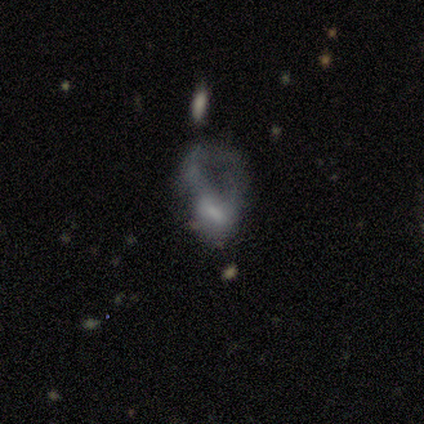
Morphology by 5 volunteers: A smooth galaxy with no disk features (60%) that is in between round and cigar-shaped (100%).

Vote fractions:
- Smooth or featured? smooth: 60% / featured or disk: 20% / star or artifact: 20%
- How rounded? in between: 100% / round: 0% / cigar-shaped: 0%
- Merging? major disturbance: 75% / merger: 25% / none: 0% / minor disturbance: 0%